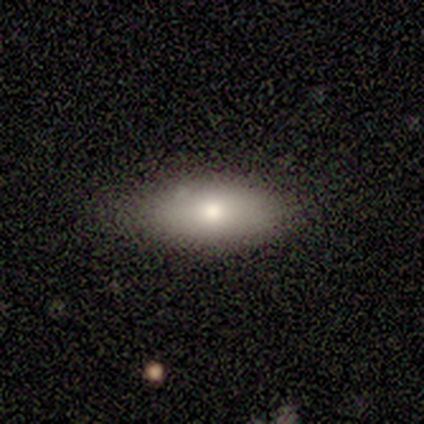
A smooth galaxy with no disk features (100%) that is in between round and cigar-shaped (100%). Merging: none (80%).